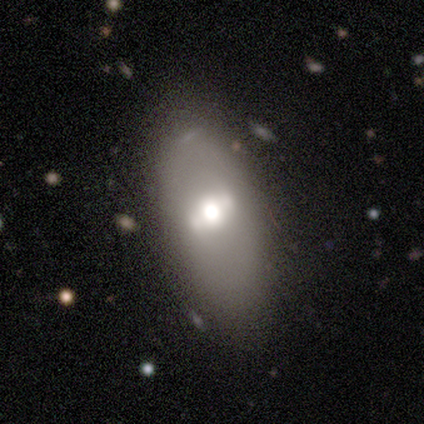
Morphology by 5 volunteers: This is marginally a smooth galaxy (40%, tied with featured or disk). How rounded: possibly round (50%, tied with in between). Merging: marginally none (25%, tied with minor disturbance, major disturbance and merger).